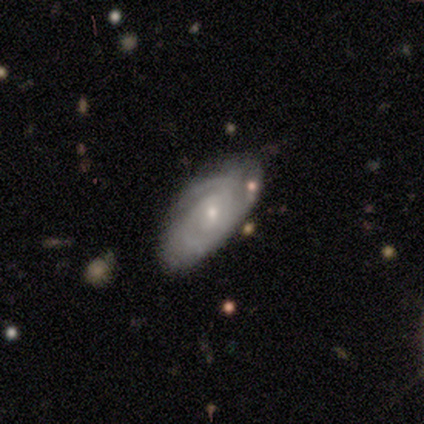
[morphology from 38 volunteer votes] smooth_or_featured: featured or disk (p=0.76) [alt: smooth p=0.21]
disk_edge_on: no (p=0.79) [alt: yes p=0.21]
bar: no (p=0.70) [alt: weak p=0.26]
has_spiral_arms: yes (p=0.91) [alt: no p=0.09]
spiral_winding: tight (p=0.62) [alt: medium p=0.19]
spiral_arm_count: 2 (p=0.48) [alt: can't tell p=0.24]
bulge_size: small (p=0.83) [alt: moderate p=0.13]
merging: none (p=0.65) [alt: minor disturbance p=0.22]